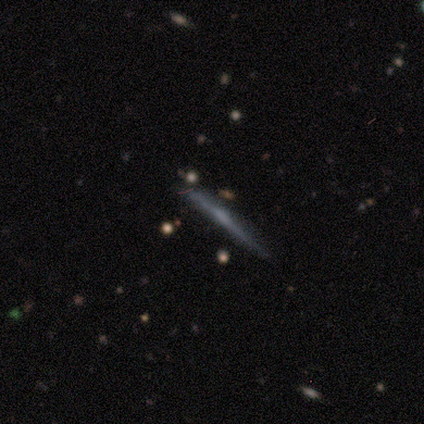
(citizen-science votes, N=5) A featured or disk galaxy (80%) viewed edge-on (100%) with no central bulge (75%).

Vote fractions:
- Smooth or featured? featured or disk: 80% / star or artifact: 20% / smooth: 0%
- Edge-on disk? yes: 100% / no: 0%
- Edge-on bulge? none: 75% / boxy: 25% / rounded: 0%
- Merging? none: 100% / minor disturbance: 0% / major disturbance: 0% / merger: 0%